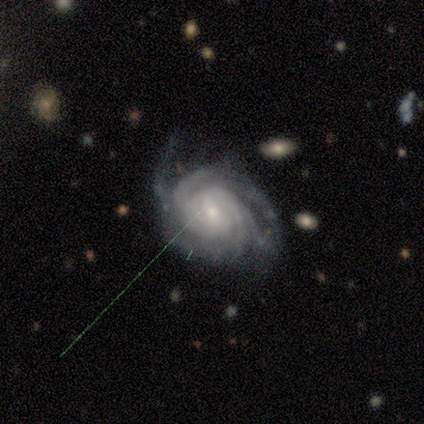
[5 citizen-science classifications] Q: Smooth or featured?
A: featured or disk (100%)
Q: Edge-on disk?
A: no (100%)
Q: Bar?
A: weak (40%); tied with: no (40%)
Q: Spiral arms?
A: yes (100%)
Q: Spiral winding?
A: tight (100%)
Q: Spiral arm count?
A: more than 4 (40%); runner-up: 3 (20%)
Q: Bulge size?
A: small (60%); runner-up: moderate (40%)
Q: Merging?
A: none (100%)